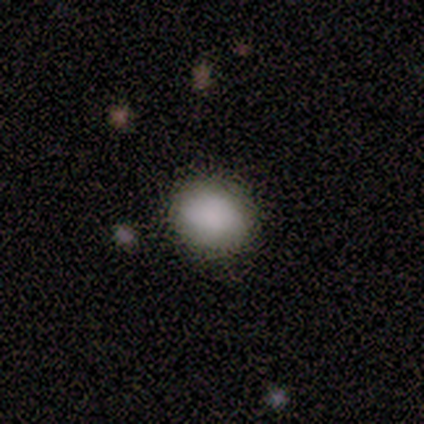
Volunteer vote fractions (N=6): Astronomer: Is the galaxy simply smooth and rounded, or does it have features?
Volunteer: smooth — 100%.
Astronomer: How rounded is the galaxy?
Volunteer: in between — 67%.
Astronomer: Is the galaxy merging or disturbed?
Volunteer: none — 100%.